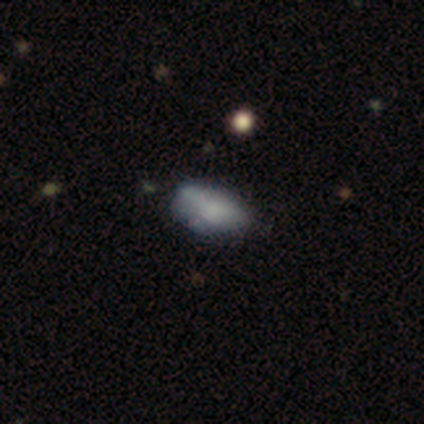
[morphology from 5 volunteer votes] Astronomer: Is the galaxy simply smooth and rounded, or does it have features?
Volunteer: smooth — 80%.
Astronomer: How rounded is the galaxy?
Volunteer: in between — 100%.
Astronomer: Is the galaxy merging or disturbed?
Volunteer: none — 60%.